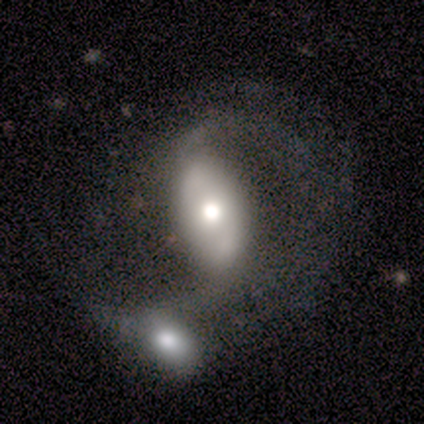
smooth_or_featured: featured or disk (p=1.00)
disk_edge_on: no (p=1.00)
bar: no (p=0.75) [alt: strong p=0.25]
has_spiral_arms: yes (p=0.75) [alt: no p=0.25]
spiral_winding: loose (p=1.00)
spiral_arm_count: 2 (p=0.67) [alt: can't tell p=0.33]
bulge_size: moderate (p=1.00)
merging: none (p=0.50) [tied with: merger p=0.50]